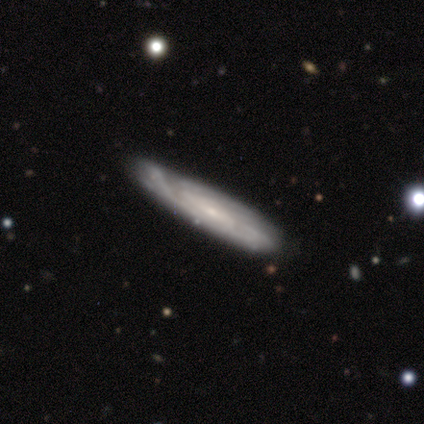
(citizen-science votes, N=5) A featured or disk galaxy (60%) viewed edge-on (100%) with no central bulge (100%). Merging: none (80%).